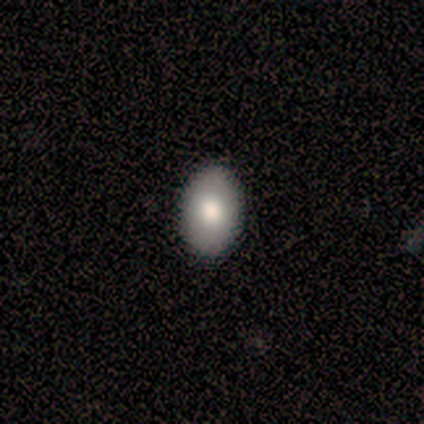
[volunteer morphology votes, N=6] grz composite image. It shows a smooth galaxy with no disk features (83%) that is in between round and cigar-shaped (100%). Merging: none (100%).